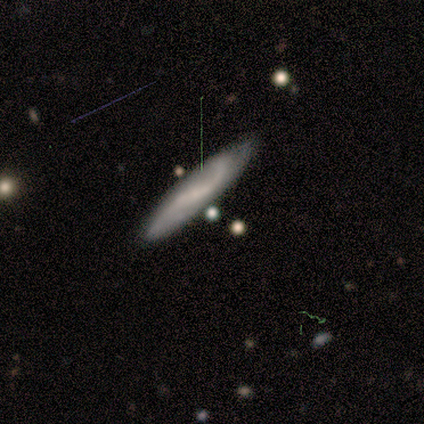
smooth_or_featured: featured or disk (p=0.80) [alt: smooth p=0.20]
disk_edge_on: no (p=0.75) [alt: yes p=0.25]
bar: strong (p=0.33) [tied with: weak p=0.33, no p=0.33]
has_spiral_arms: yes (p=1.00)
spiral_winding: loose (p=0.67) [alt: medium p=0.33]
spiral_arm_count: 2 (p=1.00)
bulge_size: none (p=1.00)
merging: none (p=0.60) [alt: minor disturbance p=0.40]